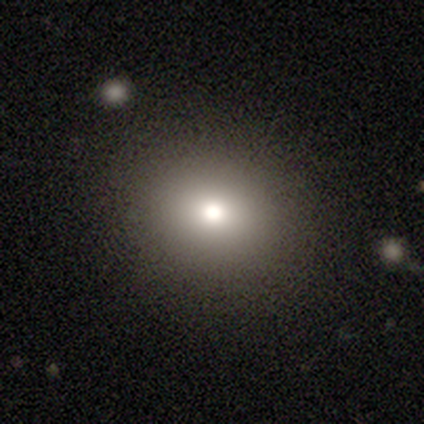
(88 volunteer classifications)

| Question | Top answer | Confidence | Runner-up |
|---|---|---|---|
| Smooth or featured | smooth | 80% | featured or disk (10%) |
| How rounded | round | 83% | in between (17%) |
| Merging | none | 97% | minor disturbance (1%) |